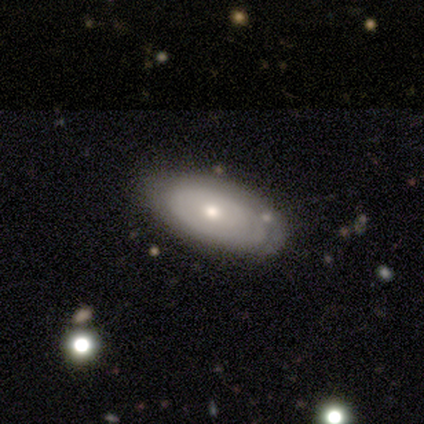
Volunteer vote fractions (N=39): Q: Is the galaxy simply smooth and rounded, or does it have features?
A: featured or disk — 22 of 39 (56%).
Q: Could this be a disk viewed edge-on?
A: no — 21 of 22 (95%).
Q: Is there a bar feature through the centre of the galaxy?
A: no — 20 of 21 (95%).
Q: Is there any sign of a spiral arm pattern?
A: no — 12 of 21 (57%).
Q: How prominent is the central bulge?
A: moderate — 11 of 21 (52%).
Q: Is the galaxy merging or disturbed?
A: none — 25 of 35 (71%).